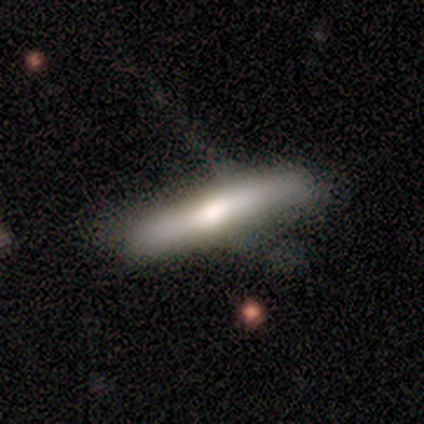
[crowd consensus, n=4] Volunteers were most divided on "merging" (2-way tie): none: 50%, minor disturbance: 50%, major disturbance: 0%, merger: 0%. More confident: how rounded — cigar-shaped (100%); smooth or featured — smooth (75%).